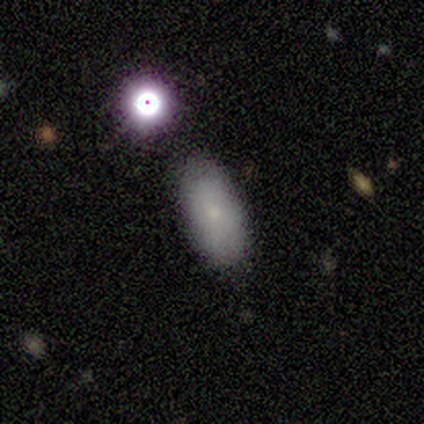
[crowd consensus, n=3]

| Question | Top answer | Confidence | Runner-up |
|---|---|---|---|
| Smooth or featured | featured or disk | 67% | smooth (33%) |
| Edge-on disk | no | 100% | — |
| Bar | no | 100% | — |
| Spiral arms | yes | 50% | tied: no (50%) |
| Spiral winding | tight | 100% | — |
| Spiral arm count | can't tell | 100% | — |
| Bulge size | moderate | 50% | tied: small (50%) |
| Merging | none | 67% | minor disturbance (33%) |